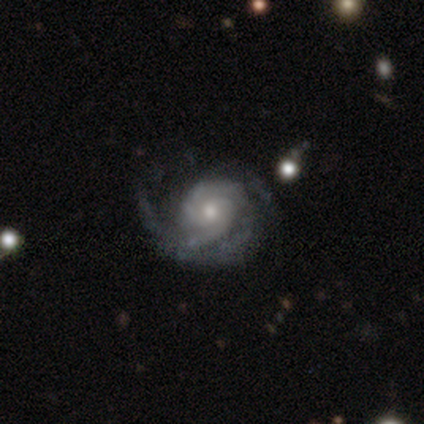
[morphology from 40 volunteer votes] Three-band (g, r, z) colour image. It shows a featured or disk galaxy (88%) with no bar (73%), 2 (44%) tight (59%) spiral arms (97%) and a moderate central bulge (55%). Merging: none (62%).